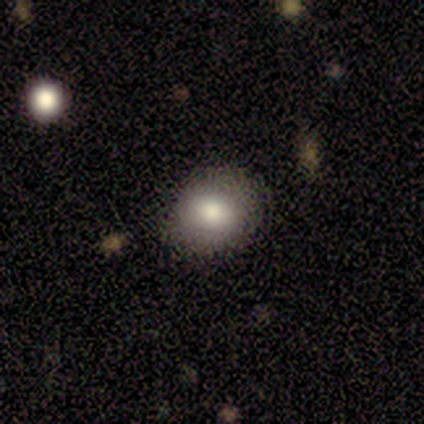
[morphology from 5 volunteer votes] smooth_or_featured: smooth (p=0.80) [alt: featured or disk p=0.20]
how_rounded: round (p=0.50) [tied with: in between p=0.50]
merging: none (p=0.80) [alt: minor disturbance p=0.20]